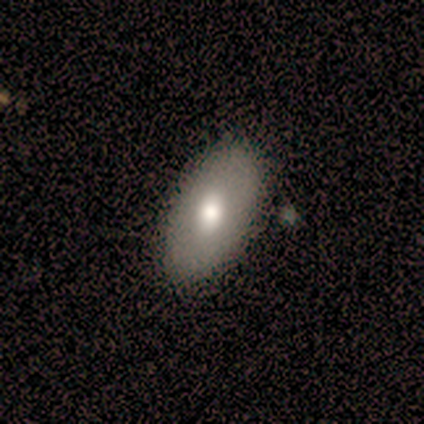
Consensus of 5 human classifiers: This appears to be a featured or disk galaxy (60%) viewed edge-on (67%) with a rounded central bulge (100%). Merging: none (80%).